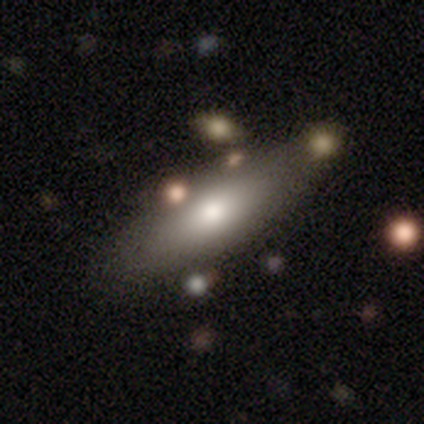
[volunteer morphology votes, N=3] Smooth or featured? 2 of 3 (67%) said smooth. How rounded? 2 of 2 (100%) said cigar-shaped. Merging? 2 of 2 (100%) said none.